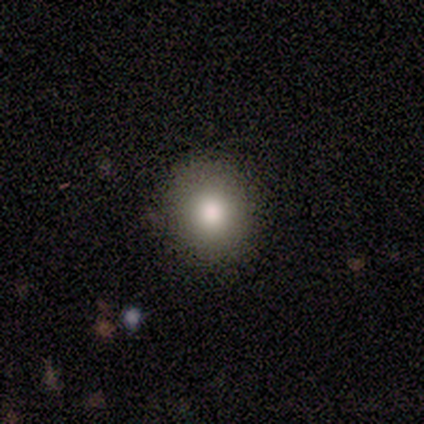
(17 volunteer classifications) This is clearly a smooth galaxy (88%). How rounded: clearly round (93%). Merging: clearly none (100%).